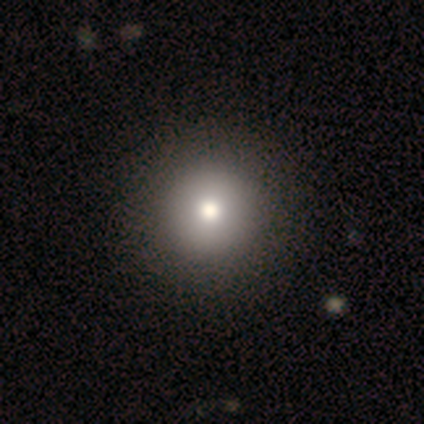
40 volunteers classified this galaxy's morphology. smooth-or-featured: smooth: 75% | featured or disk: 15% | star or artifact: 10%
  how-rounded: round: 93% | in between: 7% | cigar-shaped: 0%
  merging: none: 56% | major disturbance: 6% | minor disturbance: 0% | merger: 0%